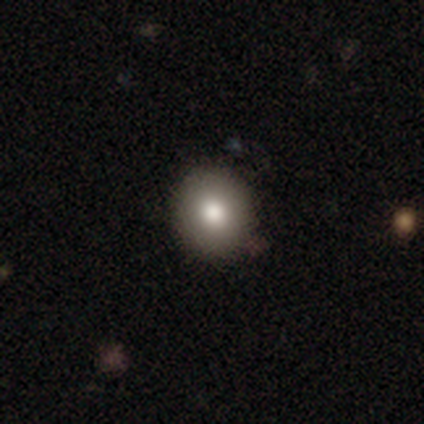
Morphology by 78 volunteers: Overall: smooth (86%). How rounded: round (87%). Merging: none (47%).